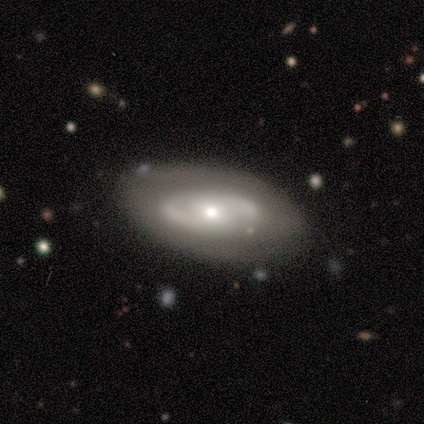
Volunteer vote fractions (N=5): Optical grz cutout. It shows a featured or disk galaxy (60%) with no bar (67%), 2 (50%, tied with can't tell) tight (50%, tied with medium) spiral arms (67%) and a small central bulge (67%). Merging: none (60%).